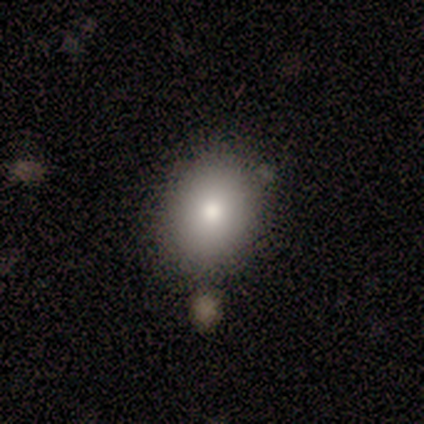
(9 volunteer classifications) Volunteers were most divided on "how rounded": in between: 62%, round: 38%, cigar-shaped: 0%. More confident: smooth or featured — smooth (89%); merging — none (56%).